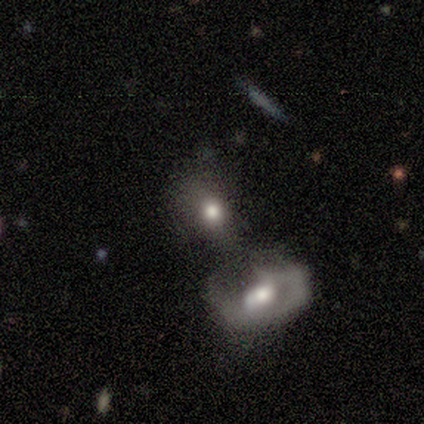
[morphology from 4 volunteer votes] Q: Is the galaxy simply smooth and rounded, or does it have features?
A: smooth — 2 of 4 (50%, tied with featured or disk).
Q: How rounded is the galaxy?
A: in between — 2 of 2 (100%).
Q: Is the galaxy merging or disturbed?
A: merger — 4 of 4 (100%).